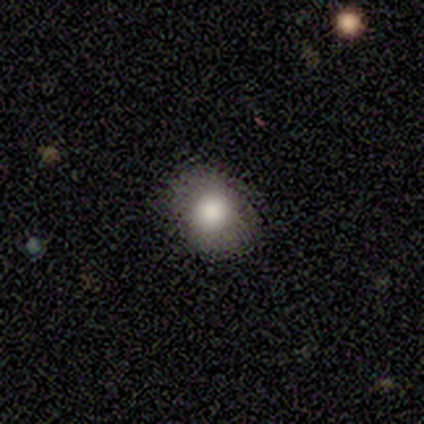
This is clearly a smooth galaxy (100%). How rounded: possibly round (50%, tied with in between). Merging: likely none (75%).